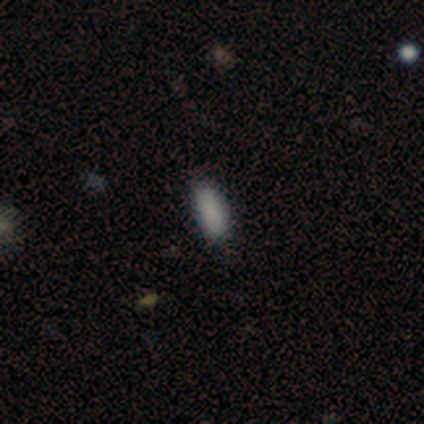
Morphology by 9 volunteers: Overall: smooth (100%). How rounded: in between (67%; cigar-shaped 33%). Merging: none (100%).